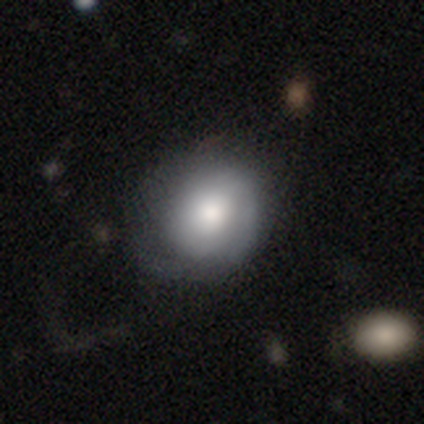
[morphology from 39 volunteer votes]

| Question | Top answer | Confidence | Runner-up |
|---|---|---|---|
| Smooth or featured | smooth | 67% | featured or disk (28%) |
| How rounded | round | 81% | in between (19%) |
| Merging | none | 41% | major disturbance (19%) |